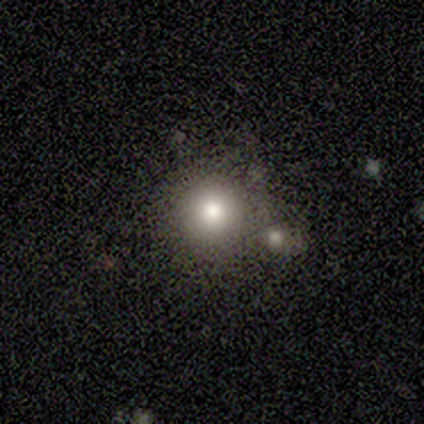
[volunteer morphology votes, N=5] This is clearly a smooth galaxy (80%). How rounded: clearly round (100%). Merging: clearly none (100%).